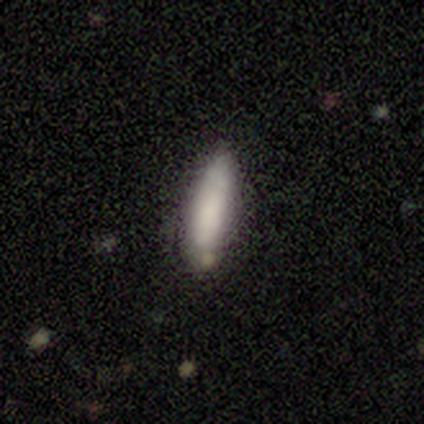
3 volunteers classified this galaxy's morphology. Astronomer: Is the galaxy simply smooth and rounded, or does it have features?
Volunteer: smooth — 67%.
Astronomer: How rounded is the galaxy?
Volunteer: in between — 50%, tied with cigar-shaped at 50%.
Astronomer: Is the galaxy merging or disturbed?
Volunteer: none — 50%, tied with major disturbance at 50%.